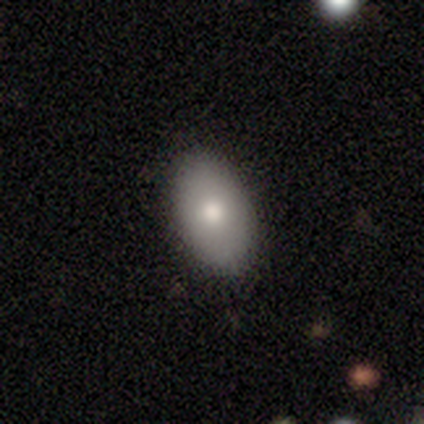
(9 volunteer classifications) Smooth or featured: smooth — 78% (featured or disk — 11%)
How rounded: in between — 100%
Merging: none — 88% (minor disturbance — 12%)